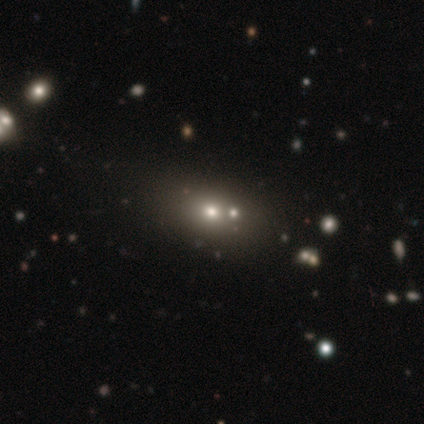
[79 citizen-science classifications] Smooth or featured? 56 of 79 (71%) said smooth. How rounded? 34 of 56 (61%) said in between. Merging? 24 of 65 (37%) said merger.